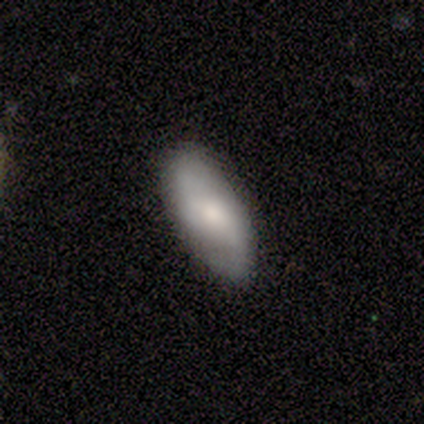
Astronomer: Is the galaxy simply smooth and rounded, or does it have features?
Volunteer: smooth — 60% (runner-up: featured or disk, 40%).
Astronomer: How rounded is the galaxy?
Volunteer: in between — 100%.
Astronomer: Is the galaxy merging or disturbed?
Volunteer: none — 100%.